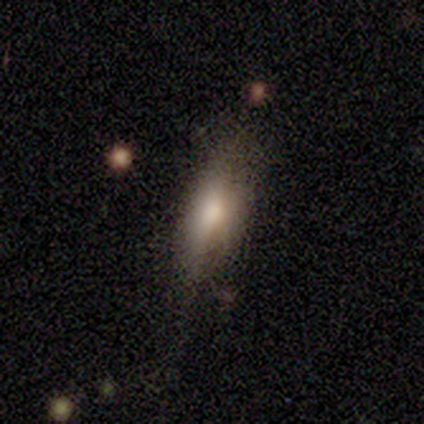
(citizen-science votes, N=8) Smooth or featured: smooth — 75% (featured or disk — 12%)
How rounded: in between — 50% (tied with cigar-shaped — 50%)
Merging: none — 71% (minor disturbance — 14%)